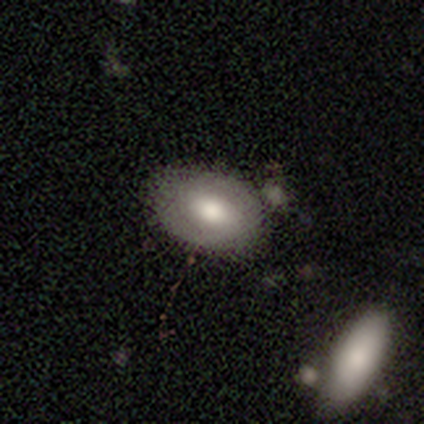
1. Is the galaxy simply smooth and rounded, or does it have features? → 55% smooth, 39% featured or disk, 5% star or artifact.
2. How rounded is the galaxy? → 86% in between, 14% round, 0% cigar-shaped.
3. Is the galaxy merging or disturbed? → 50% none, 19% merger, 6% minor disturbance, 3% major disturbance.